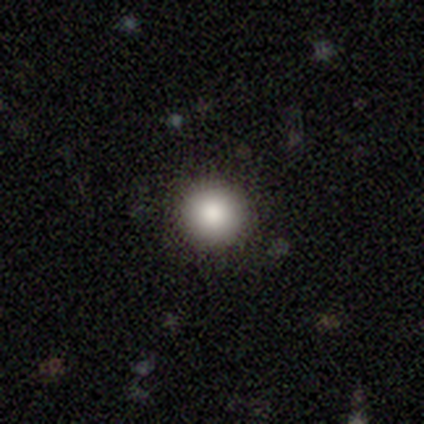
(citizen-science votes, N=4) Smooth or featured?
  - smooth: 100% *
  - featured or disk: 0%
  - star or artifact: 0%
How rounded?
  - round: 100% *
  - in between: 0%
  - cigar-shaped: 0%
Merging?
  - none: 100% *
  - minor disturbance: 0%
  - major disturbance: 0%
  - merger: 0%